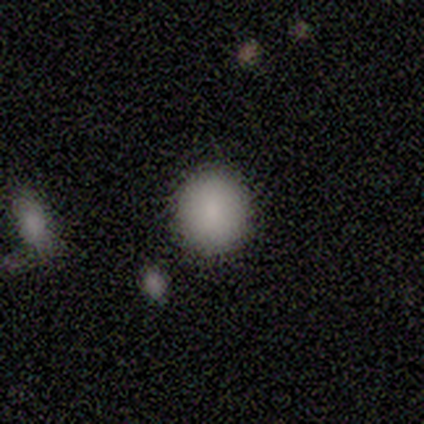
Volunteers were most divided on "how rounded": round: 75%, in between: 25%, cigar-shaped: 0%. More confident: merging — none (100%); smooth or featured — smooth (80%).